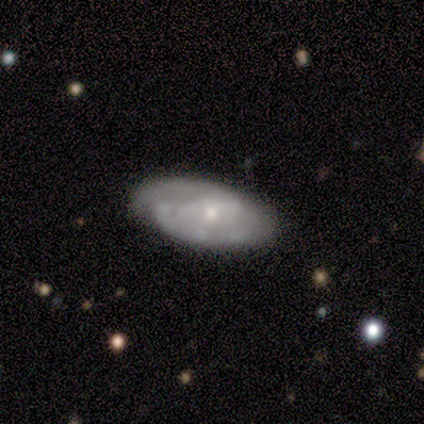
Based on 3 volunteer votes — Smooth or featured? smooth (67%)
How rounded? in between (100%)
Merging? none (100%)